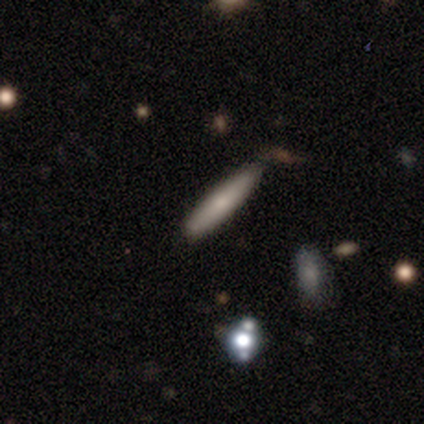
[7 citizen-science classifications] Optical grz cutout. It shows a smooth galaxy with no disk features (57%) that is cigar-shaped (100%). Merging: none (43%, tied with minor disturbance).